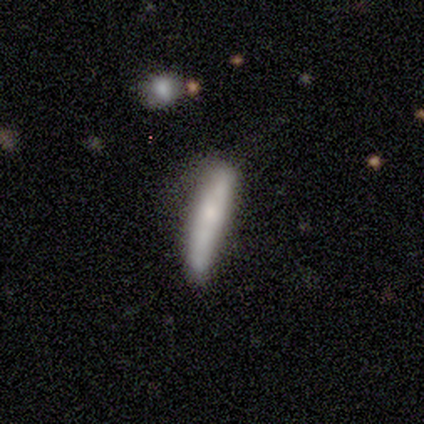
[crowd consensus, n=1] A smooth galaxy with no disk features (100%) that is cigar-shaped (100%). Merging: none (100%).